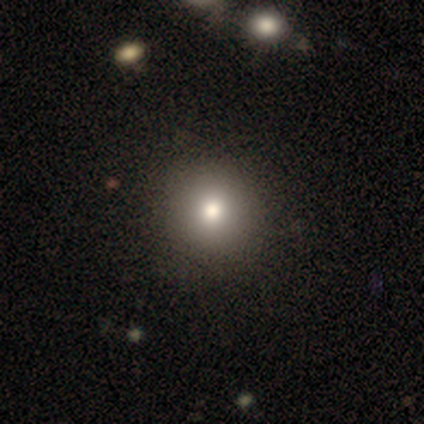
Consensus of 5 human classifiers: Smooth or featured? smooth (100%)
How rounded? round (80%)
Merging? none (100%)